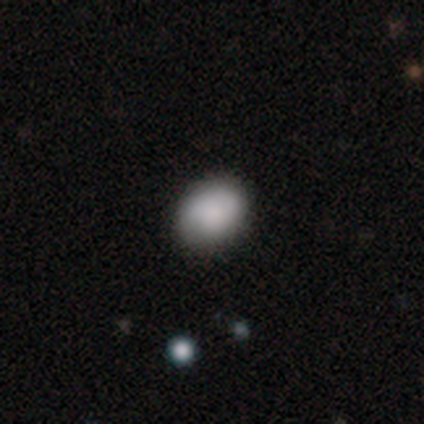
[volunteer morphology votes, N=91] Smooth or featured? smooth (88%)
How rounded? in between (60%)
Merging? none (91%)